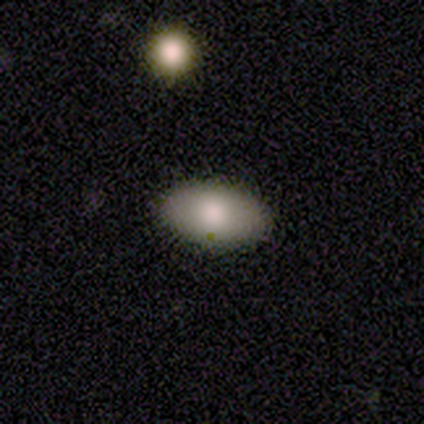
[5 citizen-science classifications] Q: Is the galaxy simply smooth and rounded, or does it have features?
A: smooth — 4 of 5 (80%).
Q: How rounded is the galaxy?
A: in between — 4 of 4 (100%).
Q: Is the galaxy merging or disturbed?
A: none — 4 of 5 (80%).